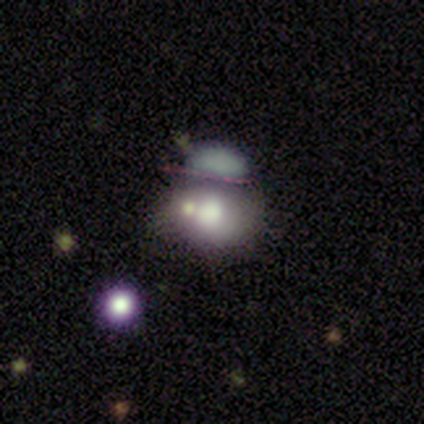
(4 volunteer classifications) Volunteers were most divided on "how rounded" (2-way tie): round: 50%, in between: 50%, cigar-shaped: 0%; "merging" (3-way tie): minor disturbance: 33%, major disturbance: 33%, merger: 33%, none: 0%. More confident: smooth or featured — smooth (50%).